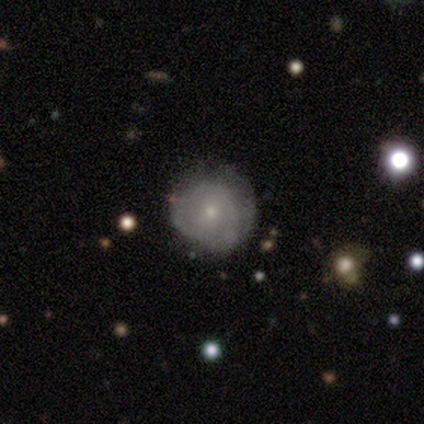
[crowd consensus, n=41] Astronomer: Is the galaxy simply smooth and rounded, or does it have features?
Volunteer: featured or disk — 59% (runner-up: smooth, 37%).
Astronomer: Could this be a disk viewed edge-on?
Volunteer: no — 96%.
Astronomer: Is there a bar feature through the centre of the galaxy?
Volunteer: no — 83%.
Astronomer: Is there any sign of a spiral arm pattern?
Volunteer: yes — 70%.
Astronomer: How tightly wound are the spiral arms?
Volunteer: tight — 81%.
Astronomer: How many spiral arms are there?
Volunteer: can't tell — 69%.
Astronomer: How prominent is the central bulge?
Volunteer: small — 96%.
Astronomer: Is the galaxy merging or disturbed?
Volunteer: none — 69%.